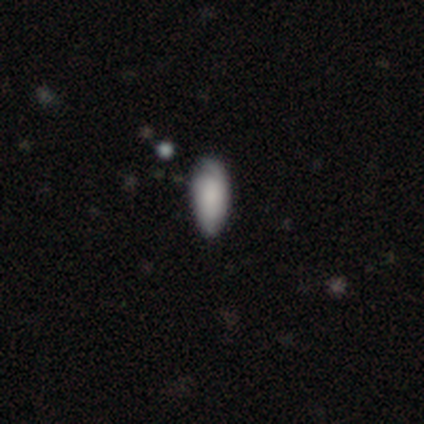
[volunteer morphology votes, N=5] A smooth galaxy with no disk features (80%) that is in between round and cigar-shaped (75%).

Vote fractions:
- Smooth or featured? smooth: 80% / featured or disk: 20% / star or artifact: 0%
- How rounded? in between: 75% / cigar-shaped: 25% / round: 0%
- Merging? none: 60% / minor disturbance: 40% / major disturbance: 0% / merger: 0%